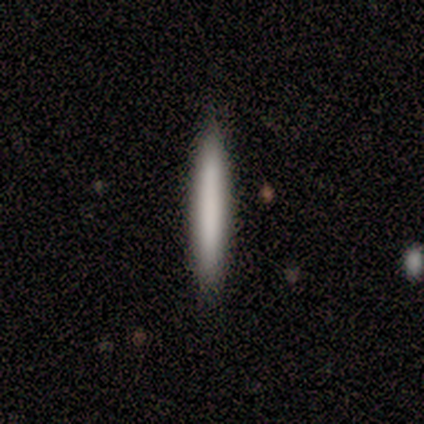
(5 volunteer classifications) smooth 100%, featured or disk 0%, star or artifact 0%. Down the decision tree: how rounded — cigar-shaped (100%); merging — none (100%).